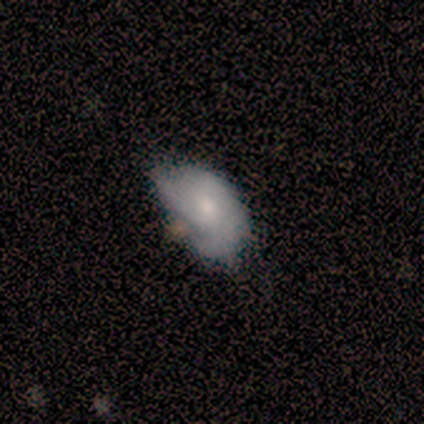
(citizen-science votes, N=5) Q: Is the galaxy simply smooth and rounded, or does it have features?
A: featured or disk — 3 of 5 (60%).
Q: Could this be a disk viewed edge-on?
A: no — 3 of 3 (100%).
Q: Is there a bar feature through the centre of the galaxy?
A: no — 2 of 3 (67%).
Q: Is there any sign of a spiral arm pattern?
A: no — 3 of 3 (100%).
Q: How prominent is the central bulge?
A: small — 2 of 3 (67%).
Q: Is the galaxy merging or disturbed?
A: none — 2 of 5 (40%, tied with minor disturbance).